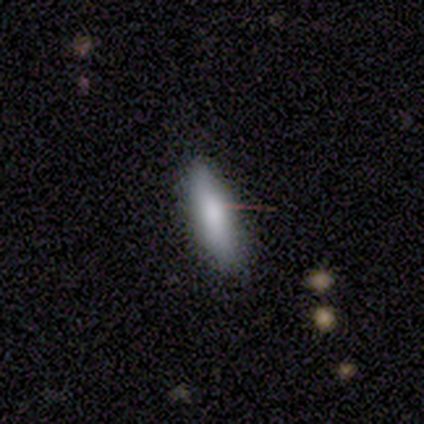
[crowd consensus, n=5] A smooth galaxy with no disk features (60%) that is in between round and cigar-shaped (67%). Merging: none (75%).